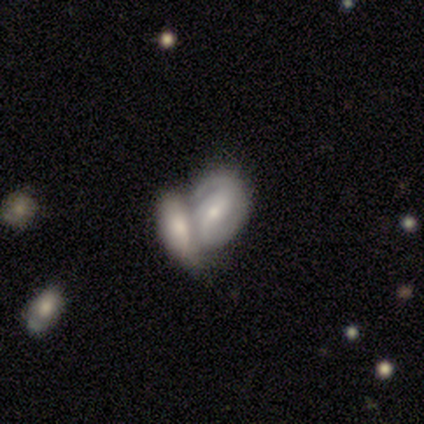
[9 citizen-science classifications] featured or disk 89%, smooth 11%, star or artifact 0%. Down the decision tree: edge-on disk — no (100%); bar — weak (75%); spiral arms — yes (88%); spiral arm count — 2 (71%); spiral winding — medium (57%); bulge size — moderate (50%, tied with small); merging — merger (78%).